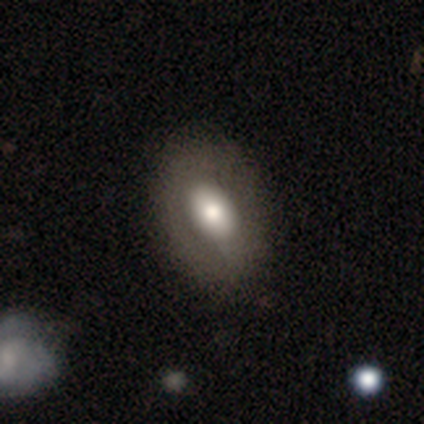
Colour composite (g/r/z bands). It shows a featured or disk galaxy (75%) with a strong bar (50%, tied with weak), no spiral arms (100%) and a large central bulge (100%). Merging: none (100%).